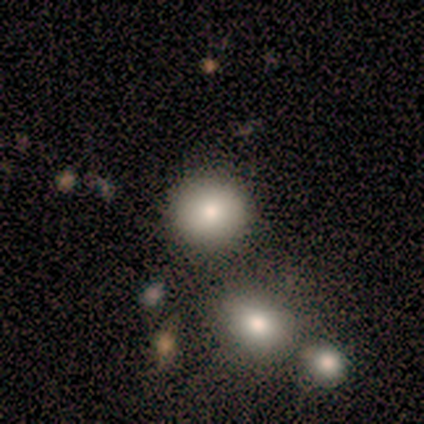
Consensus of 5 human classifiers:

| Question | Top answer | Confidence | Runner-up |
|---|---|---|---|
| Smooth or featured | smooth | 80% | star or artifact (20%) |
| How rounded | round | 75% | in between (25%) |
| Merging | none | 75% | major disturbance (25%) |